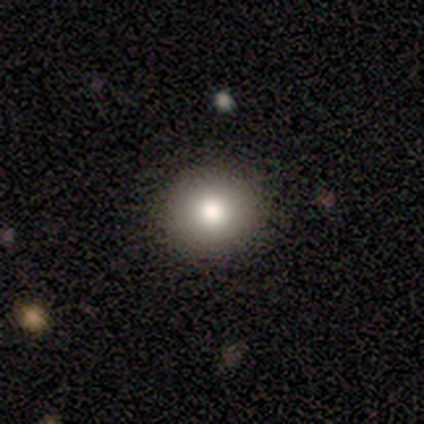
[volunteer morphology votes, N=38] Smooth or featured? smooth (63%)
How rounded? round (88%)
Merging? none (87%)